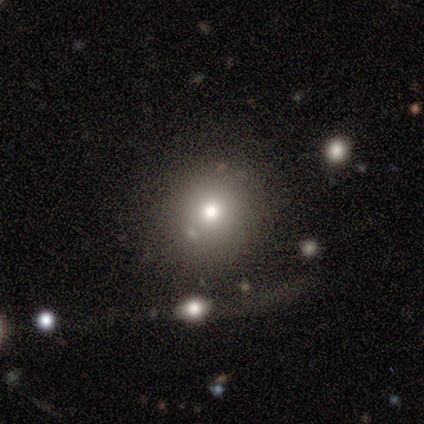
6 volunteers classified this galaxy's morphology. This appears to be a smooth galaxy with no disk features (67%) that is round (100%). Merging: none (80%).